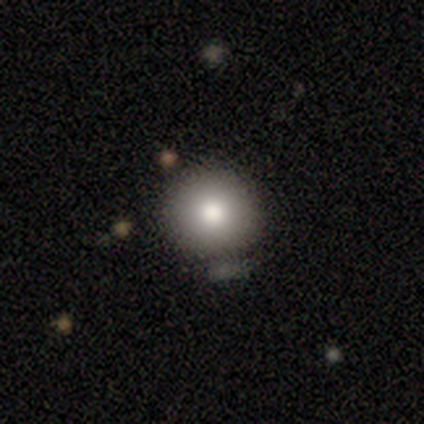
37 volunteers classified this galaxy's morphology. smooth-or-featured: smooth: 86% | star or artifact: 8% | featured or disk: 5%
  how-rounded: round: 100% | in between: 0% | cigar-shaped: 0%
  merging: none: 79% | merger: 15% | minor disturbance: 3% | major disturbance: 3%